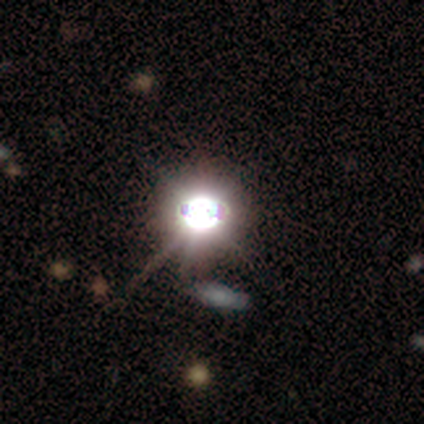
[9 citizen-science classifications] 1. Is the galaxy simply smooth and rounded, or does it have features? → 67% star or artifact, 22% featured or disk, 11% smooth.